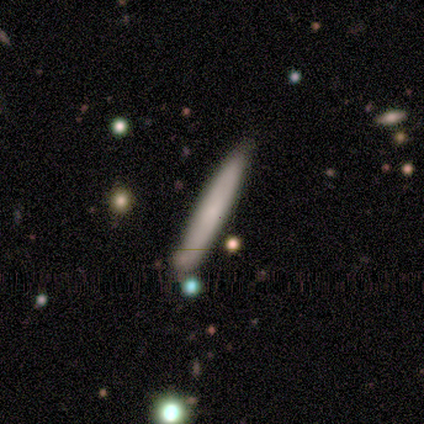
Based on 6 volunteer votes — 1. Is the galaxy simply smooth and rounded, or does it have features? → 83% smooth, 17% featured or disk, 0% star or artifact.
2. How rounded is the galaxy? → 100% cigar-shaped, 0% round, 0% in between.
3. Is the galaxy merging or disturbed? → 50% none (tied), 50% minor disturbance (tied), 0% major disturbance, 0% merger.